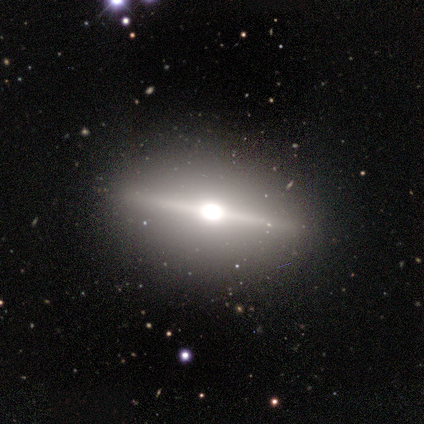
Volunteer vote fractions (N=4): Overall: featured or disk (100%). Edge-on disk: yes (100%). Edge-on bulge: rounded (100%). Merging: none (75%).